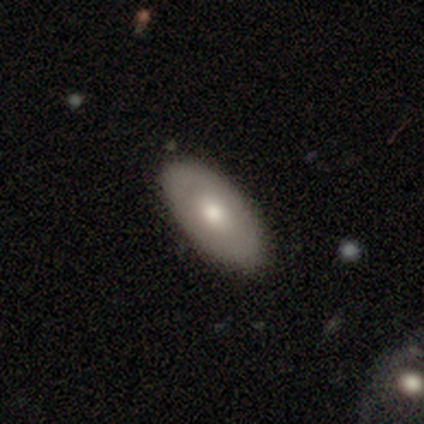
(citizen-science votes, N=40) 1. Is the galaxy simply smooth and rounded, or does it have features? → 65% smooth, 35% featured or disk, 0% star or artifact.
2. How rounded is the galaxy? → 88% in between, 8% round, 4% cigar-shaped.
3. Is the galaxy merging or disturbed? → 70% none, 8% minor disturbance, 5% merger, 0% major disturbance.